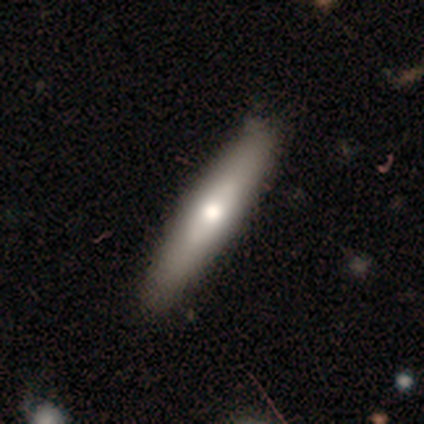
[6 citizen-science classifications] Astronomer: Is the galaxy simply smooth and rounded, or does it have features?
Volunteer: smooth — 67%.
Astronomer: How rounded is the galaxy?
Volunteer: cigar-shaped — 100%.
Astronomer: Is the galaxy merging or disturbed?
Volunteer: none — 83%.